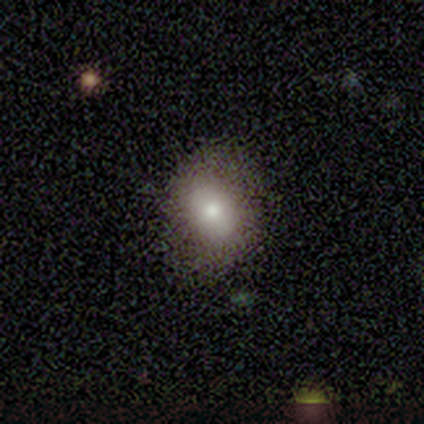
This appears to be a smooth galaxy with no disk features (60%) that is in between round and cigar-shaped (67%). Merging: none (100%).